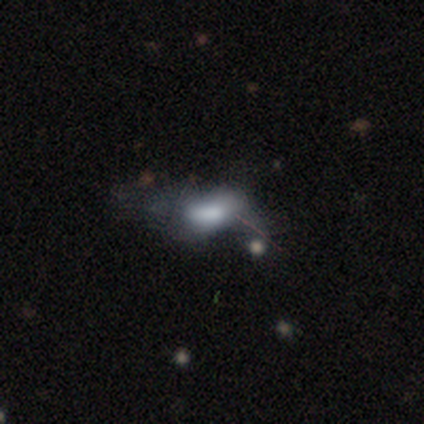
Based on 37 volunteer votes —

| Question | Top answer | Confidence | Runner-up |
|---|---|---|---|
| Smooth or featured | smooth | 51% | featured or disk (46%) |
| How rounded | in between | 84% | cigar-shaped (16%) |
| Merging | major disturbance | 53% | minor disturbance (19%) |